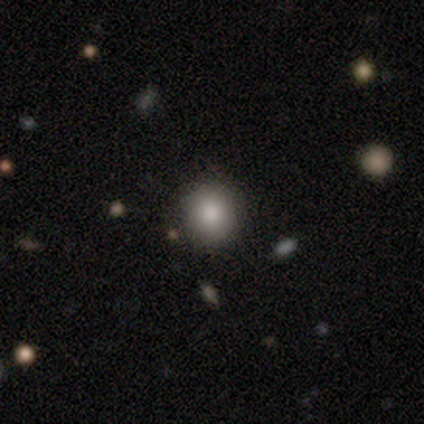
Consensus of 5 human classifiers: Smooth or featured? smooth (80%)
How rounded? round (75%)
Merging? none (50%, tied with minor disturbance)